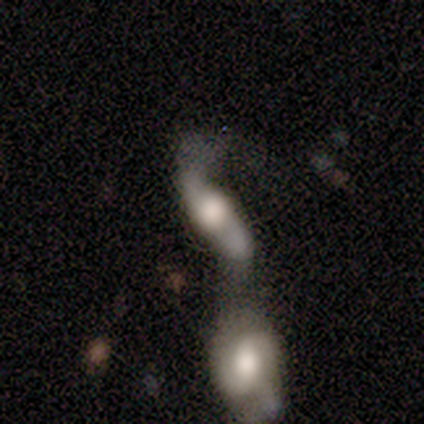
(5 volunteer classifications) Volunteers were most divided on "bar" (3-way tie): strong: 33%, weak: 33%, no: 33%. More confident: smooth or featured — featured or disk (100%); spiral arms — yes (100%); merging — merger (80%); spiral winding — loose (67%); spiral arm count — 2 (67%); bulge size — moderate (67%); edge-on disk — no (60%).